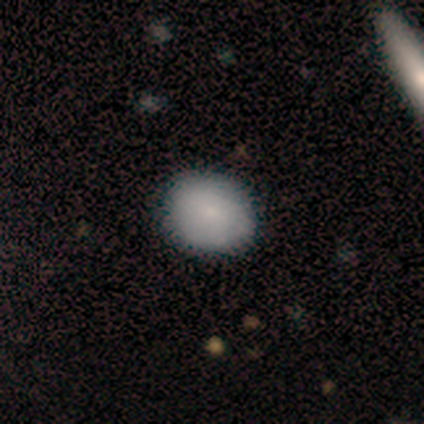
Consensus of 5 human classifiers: Smooth or featured?
  - smooth: 100% *
  - featured or disk: 0%
  - star or artifact: 0%
How rounded?
  - round: 60% *
  - in between: 40%
  - cigar-shaped: 0%
Merging?
  - none: 80% *
  - minor disturbance: 20%
  - major disturbance: 0%
  - merger: 0%